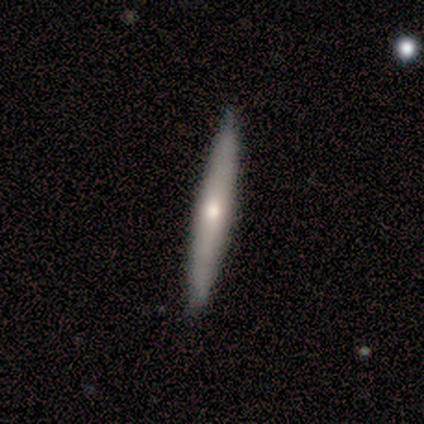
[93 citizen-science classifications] featured or disk 47%, smooth 46%, star or artifact 6%. Down the decision tree: edge-on disk — yes (86%); edge-on bulge — rounded (79%); merging — none (98%).